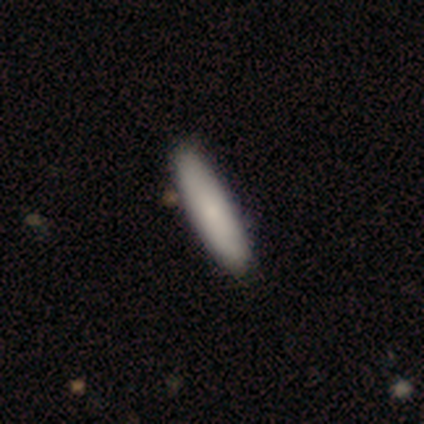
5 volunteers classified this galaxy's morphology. Smooth or featured?
  - smooth: 80% *
  - star or artifact: 20%
  - featured or disk: 0%
How rounded?
  - in between: 50% * (tied)
  - cigar-shaped: 50% * (tied)
  - round: 0%
Merging?
  - none: 100% *
  - minor disturbance: 0%
  - major disturbance: 0%
  - merger: 0%